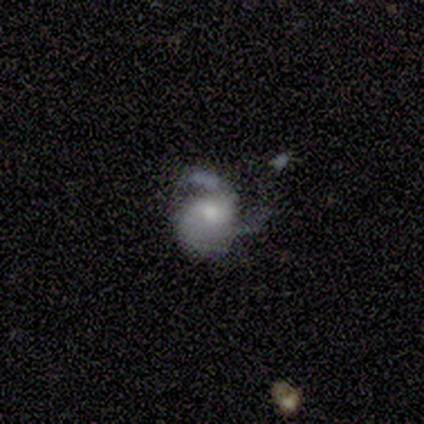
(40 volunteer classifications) featured or disk 75%, smooth 18%, star or artifact 8%. Down the decision tree: edge-on disk — no (97%); bar — no (72%); spiral arms — yes (90%); spiral arm count — 2 (50%); spiral winding — medium (42%); bulge size — moderate (48%); merging — major disturbance (41%).